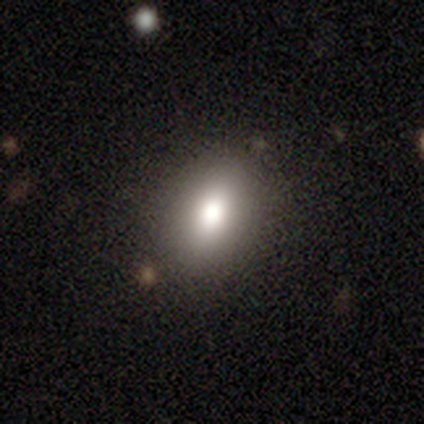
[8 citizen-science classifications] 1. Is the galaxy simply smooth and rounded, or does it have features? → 88% smooth, 12% star or artifact, 0% featured or disk.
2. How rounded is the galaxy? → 100% in between, 0% round, 0% cigar-shaped.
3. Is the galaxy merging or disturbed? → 86% none, 14% minor disturbance, 0% major disturbance, 0% merger.